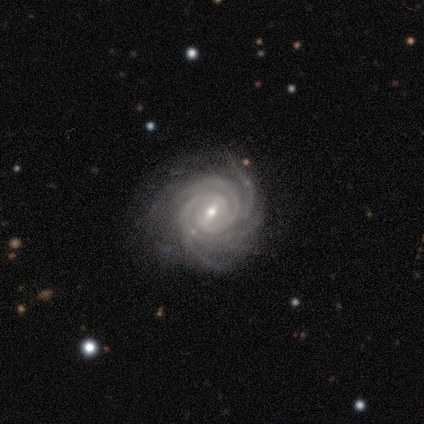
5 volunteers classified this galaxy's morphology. Q: Smooth or featured?
A: featured or disk (100%)
Q: Edge-on disk?
A: no (100%)
Q: Bar?
A: weak (40%); tied with: no (40%)
Q: Spiral arms?
A: yes (100%)
Q: Spiral winding?
A: tight (80%); runner-up: medium (20%)
Q: Spiral arm count?
A: more than 4 (40%); tied with: can't tell (40%)
Q: Bulge size?
A: small (80%); runner-up: moderate (20%)
Q: Merging?
A: none (80%); runner-up: minor disturbance (20%)